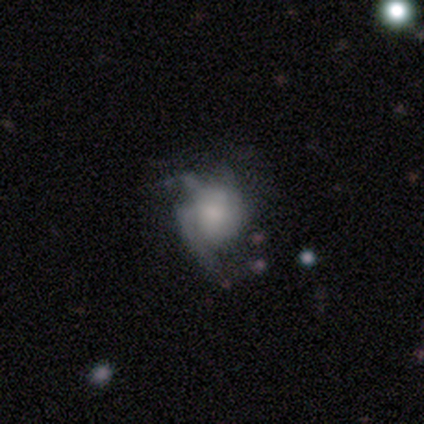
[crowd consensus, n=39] A featured or disk galaxy (67%) with no bar (73%), 2 (35%, tied with can't tell) medium (47%) spiral arms (65%) and a moderate central bulge (31%, tied with small). Merging: major disturbance (39%).